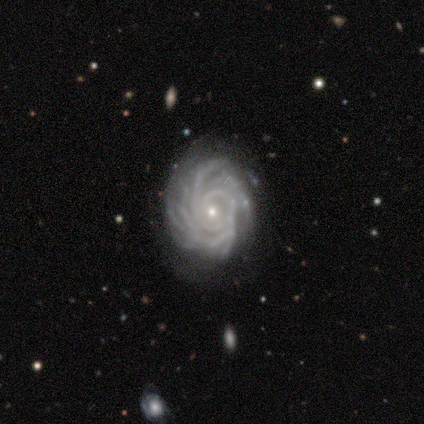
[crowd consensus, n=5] Smooth or featured? 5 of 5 (100%) said featured or disk. Edge-on disk? 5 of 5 (100%) said no. Bar? 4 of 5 (80%) said no. Spiral arms? 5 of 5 (100%) said yes. Spiral winding? 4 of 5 (80%) said tight. Spiral arm count? 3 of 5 (60%) said 4. Bulge size? 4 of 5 (80%) said small. Merging? 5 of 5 (100%) said none.